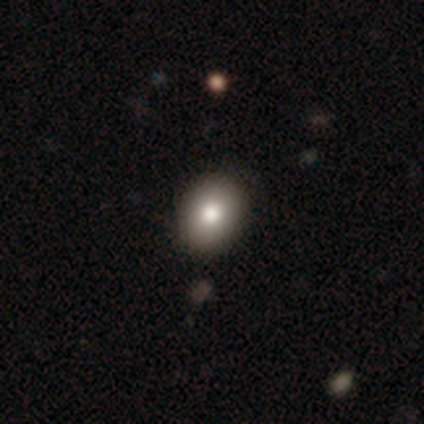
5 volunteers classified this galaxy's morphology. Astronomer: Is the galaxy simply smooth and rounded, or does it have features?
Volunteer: smooth — 60%.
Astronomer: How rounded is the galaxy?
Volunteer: in between — 67%.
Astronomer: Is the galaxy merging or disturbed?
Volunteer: none — 100%.